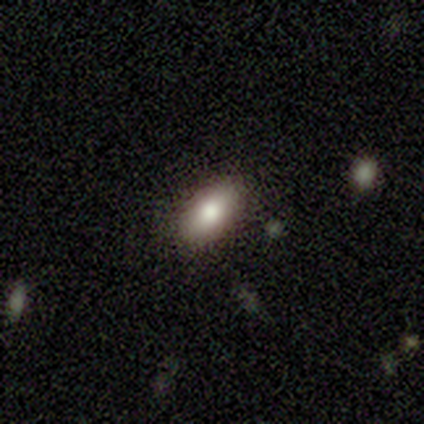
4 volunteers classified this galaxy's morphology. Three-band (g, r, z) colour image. It shows a smooth galaxy with no disk features (100%) that is in between round and cigar-shaped (100%). Merging: none (100%).